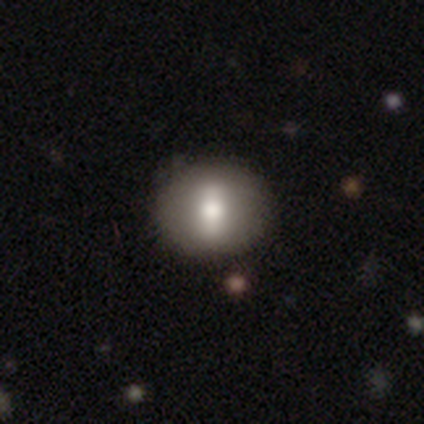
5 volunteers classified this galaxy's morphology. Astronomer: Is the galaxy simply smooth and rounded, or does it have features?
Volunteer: featured or disk — 80%.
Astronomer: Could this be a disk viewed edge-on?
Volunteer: no — 100%.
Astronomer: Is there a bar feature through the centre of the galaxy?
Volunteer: no — 50%.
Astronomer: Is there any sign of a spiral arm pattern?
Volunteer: no — 100%.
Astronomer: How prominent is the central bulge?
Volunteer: moderate — 75%.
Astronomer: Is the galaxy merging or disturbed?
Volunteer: none — 100%.